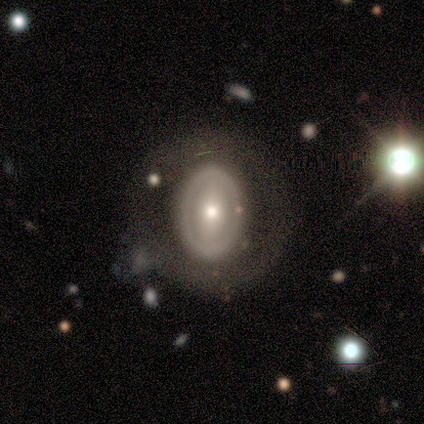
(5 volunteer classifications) smooth_or_featured: smooth (p=0.80) [alt: featured or disk p=0.20]
how_rounded: round (p=0.50) [tied with: in between p=0.50]
merging: none (p=0.60) [alt: minor disturbance p=0.40]